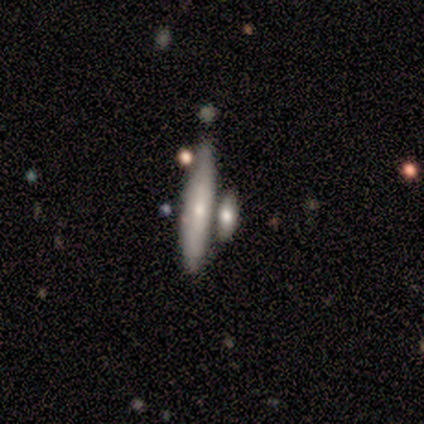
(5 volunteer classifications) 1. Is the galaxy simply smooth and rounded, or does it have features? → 60% featured or disk, 40% smooth, 0% star or artifact.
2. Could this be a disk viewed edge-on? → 100% yes, 0% no.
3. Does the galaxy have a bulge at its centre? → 67% none, 33% rounded, 0% boxy.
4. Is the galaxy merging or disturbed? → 60% merger, 20% none, 20% minor disturbance, 0% major disturbance.